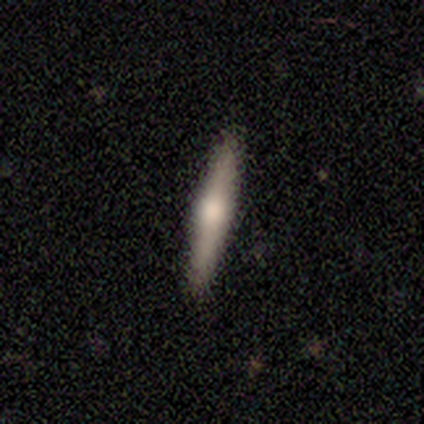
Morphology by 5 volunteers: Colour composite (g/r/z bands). It shows a featured or disk galaxy (80%) viewed edge-on (100%) with a rounded central bulge (100%). Merging: none (100%).